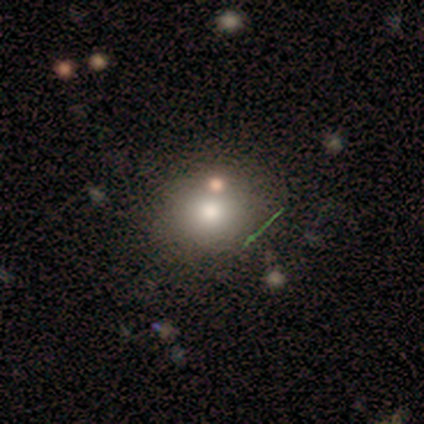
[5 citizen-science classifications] This is marginally a smooth galaxy (40%, tied with featured or disk). How rounded: clearly round (100%). Merging: likely none (75%).